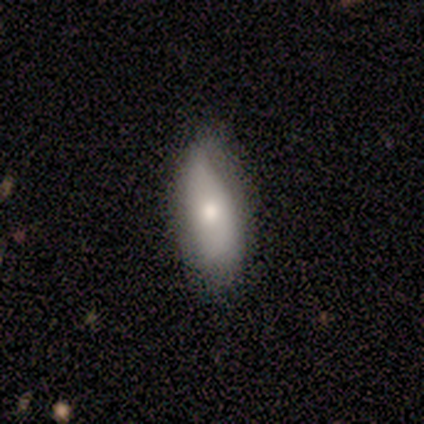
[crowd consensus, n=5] smooth-or-featured: smooth: 80% | featured or disk: 20% | star or artifact: 0%
  how-rounded: in between: 75% | cigar-shaped: 25% | round: 0%
  merging: minor disturbance: 60% | none: 40% | major disturbance: 0% | merger: 0%